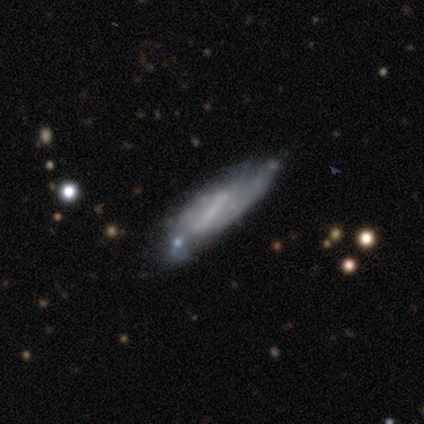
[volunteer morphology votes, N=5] type=featured or disk (60%); edge-on=yes (67%); edge-on bulge=none (100%); merging=none (50%).